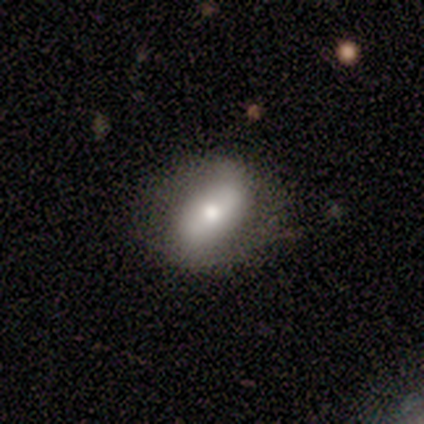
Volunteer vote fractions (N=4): A smooth galaxy with no disk features (100%) that is in between round and cigar-shaped (75%). Merging: none (50%).